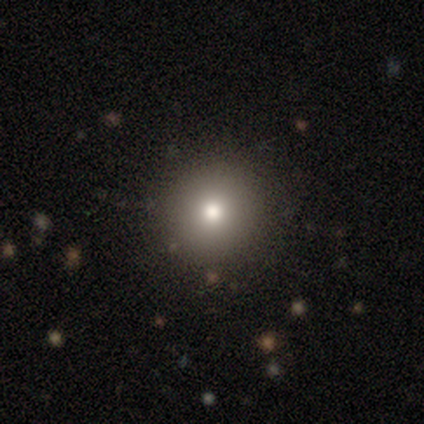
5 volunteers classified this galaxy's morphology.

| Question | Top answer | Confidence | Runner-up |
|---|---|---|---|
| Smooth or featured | smooth | 80% | star or artifact (20%) |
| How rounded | round | 100% | — |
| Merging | none | 100% | — |